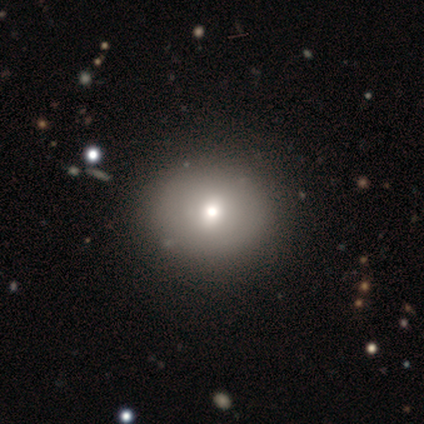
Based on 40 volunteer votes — smooth-or-featured: smooth: 68% | featured or disk: 18% | star or artifact: 15%
  how-rounded: round: 78% | in between: 22% | cigar-shaped: 0%
  merging: none: 82% | minor disturbance: 12% | major disturbance: 3% | merger: 3%